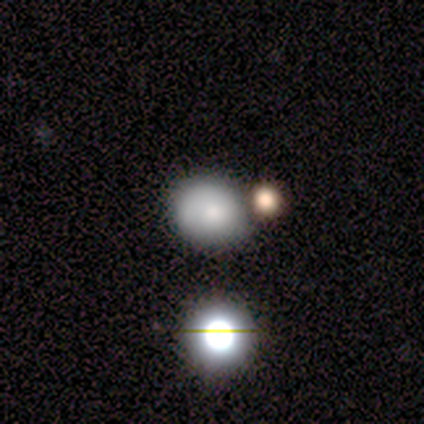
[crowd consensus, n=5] Q: Smooth or featured?
A: smooth (80%); runner-up: featured or disk (20%)
Q: How rounded?
A: round (75%); runner-up: in between (25%)
Q: Merging?
A: none (60%); runner-up: minor disturbance (40%)